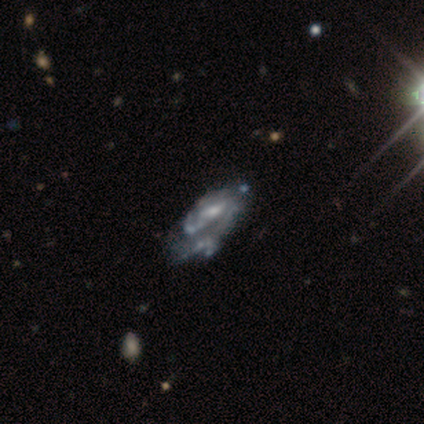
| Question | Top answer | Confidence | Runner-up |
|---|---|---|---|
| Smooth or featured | featured or disk | 100% | — |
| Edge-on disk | no | 100% | — |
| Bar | no | 60% | weak (40%) |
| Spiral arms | yes | 80% | no (20%) |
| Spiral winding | tight | 50% | medium (25%) |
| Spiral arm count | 1 | 50% | tied: 2 (50%) |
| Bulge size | moderate | 40% | tied: small (40%) |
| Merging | none | 40% | tied: major disturbance (40%) |